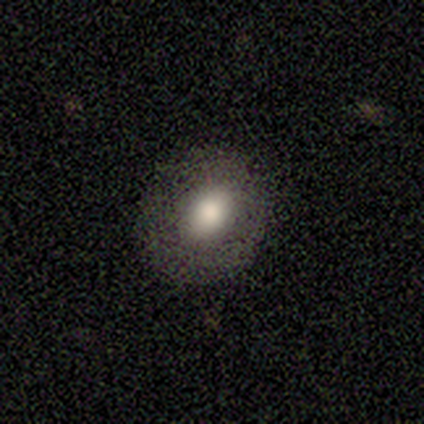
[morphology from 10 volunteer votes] type=smooth (60%); roundness=round (100%); merging=none (67%).